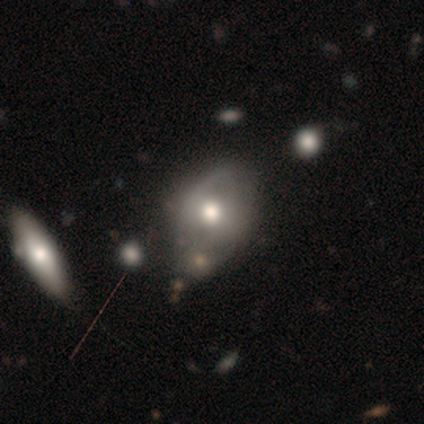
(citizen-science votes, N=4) A smooth galaxy with no disk features (75%) that is in between round and cigar-shaped (100%). Merging: none (50%).